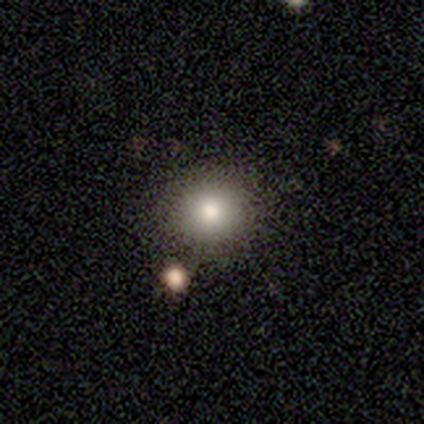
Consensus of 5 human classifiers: Smooth or featured? smooth (60%)
How rounded? round (100%)
Merging? none (50%)